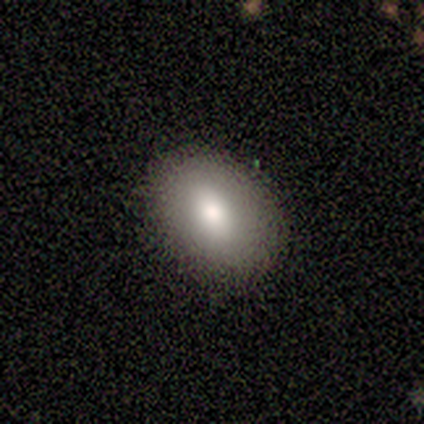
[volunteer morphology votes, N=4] Q: Smooth or featured?
A: smooth (75%); runner-up: star or artifact (25%)
Q: How rounded?
A: in between (67%); runner-up: round (33%)
Q: Merging?
A: none (100%)